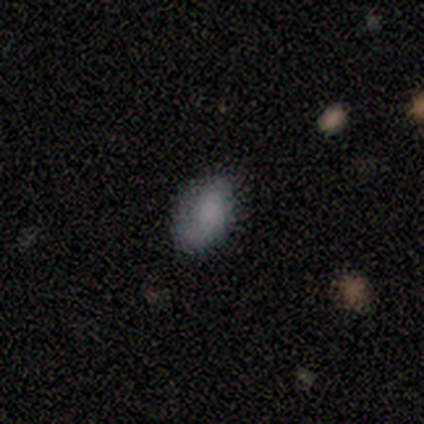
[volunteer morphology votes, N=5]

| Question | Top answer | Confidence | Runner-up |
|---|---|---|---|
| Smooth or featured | smooth | 80% | star or artifact (20%) |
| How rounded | in between | 100% | — |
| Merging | none | 100% | — |